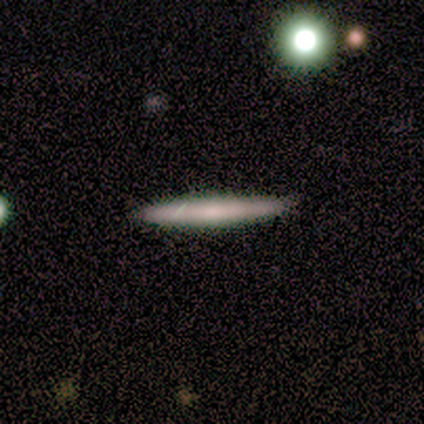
This appears to be a smooth galaxy with no disk features (80%) that is cigar-shaped (75%). Merging: none (100%).